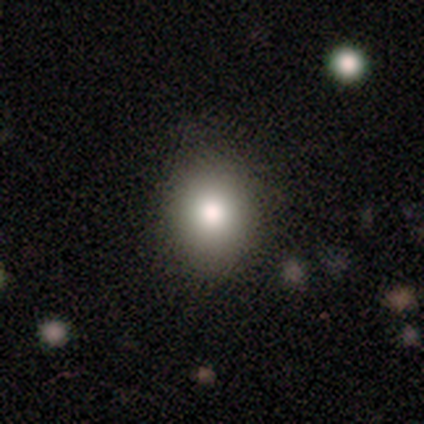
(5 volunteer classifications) Morphology: type=smooth (80%); roundness=round (75%); merging=none (50%, tied with minor disturbance).